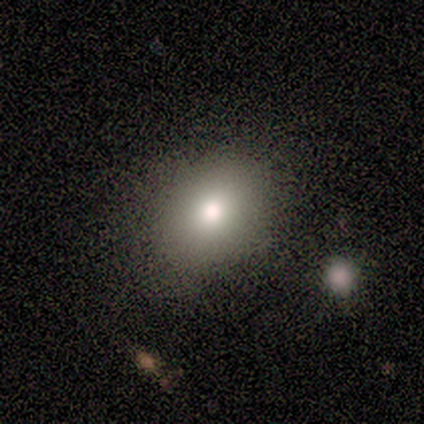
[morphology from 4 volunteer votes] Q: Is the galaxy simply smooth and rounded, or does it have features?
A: smooth — 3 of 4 (75%).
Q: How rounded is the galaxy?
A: round — 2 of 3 (67%).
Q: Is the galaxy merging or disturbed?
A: none — 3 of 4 (75%).